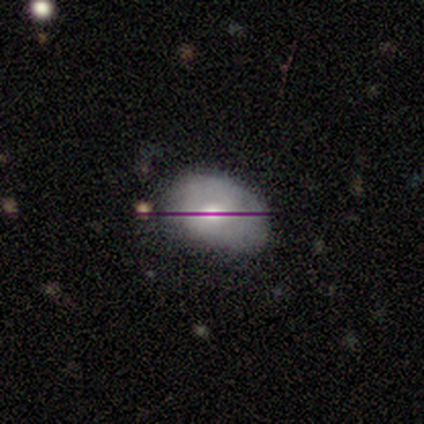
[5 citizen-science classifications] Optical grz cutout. It shows a smooth galaxy with no disk features (100%) that is in between round and cigar-shaped (80%). Merging: none (60%).